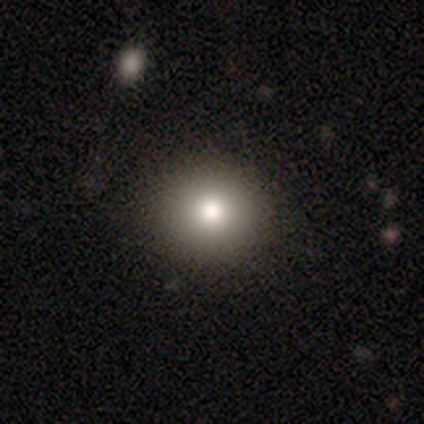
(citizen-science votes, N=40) This is clearly a smooth galaxy (82%). How rounded: clearly round (88%). Merging: clearly none (97%).